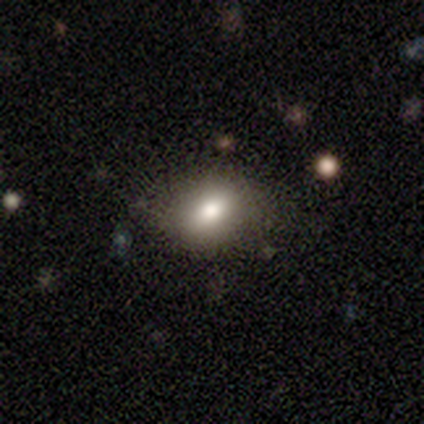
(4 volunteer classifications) Smooth or featured? 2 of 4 (50%, tied with featured or disk) said smooth. How rounded? 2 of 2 (100%) said in between. Merging? 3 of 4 (75%) said none.